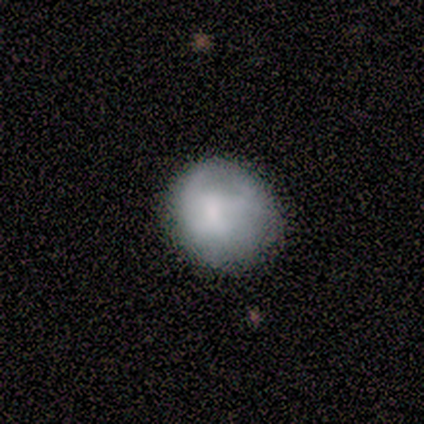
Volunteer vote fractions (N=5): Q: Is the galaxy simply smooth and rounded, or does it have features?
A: smooth — 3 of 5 (60%).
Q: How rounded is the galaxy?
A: round — 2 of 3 (67%).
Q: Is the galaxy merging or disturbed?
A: none — 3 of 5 (60%).